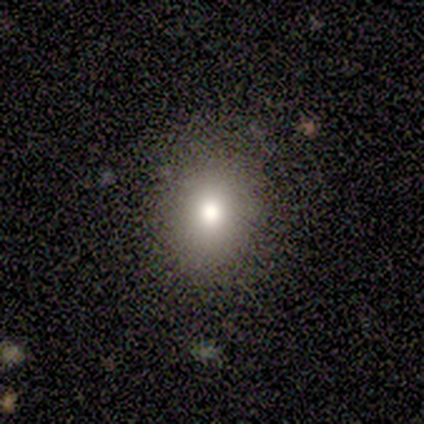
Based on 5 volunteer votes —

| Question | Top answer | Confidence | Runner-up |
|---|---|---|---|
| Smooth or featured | smooth | 60% | featured or disk (20%) |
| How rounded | round | 100% | — |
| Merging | none | 100% | — |